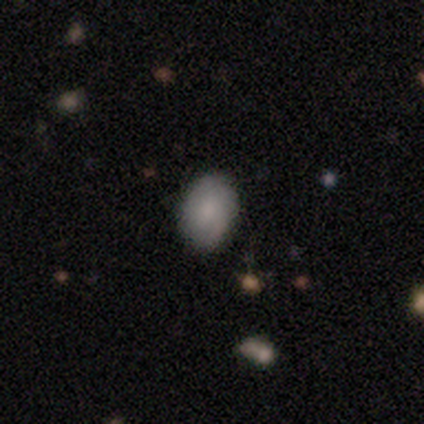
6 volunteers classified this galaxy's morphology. This appears to be a smooth galaxy with no disk features (83%) that is in between round and cigar-shaped (100%). Merging: none (100%).